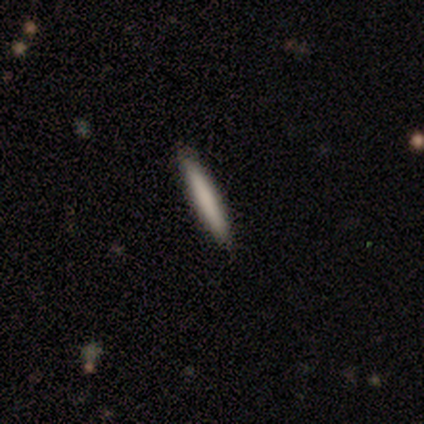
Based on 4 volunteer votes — smooth_or_featured: smooth (p=1.00)
how_rounded: cigar-shaped (p=1.00)
merging: none (p=1.00)